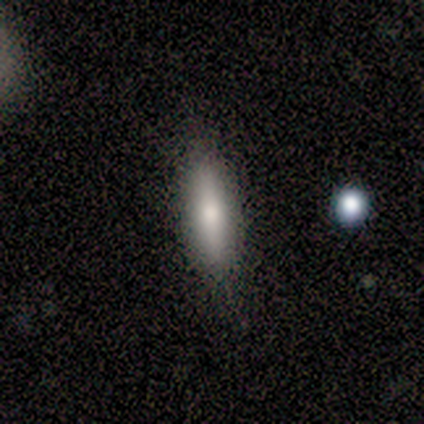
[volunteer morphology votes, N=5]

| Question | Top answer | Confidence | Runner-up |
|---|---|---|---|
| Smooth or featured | smooth | 100% | — |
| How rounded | cigar-shaped | 60% | in between (40%) |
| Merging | none | 100% | — |